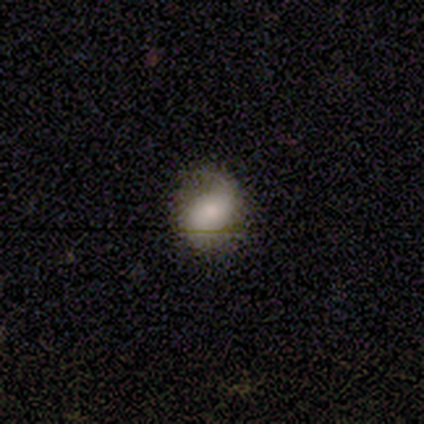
A smooth galaxy with no disk features (50%) that is round (100%). Merging: none (60%).